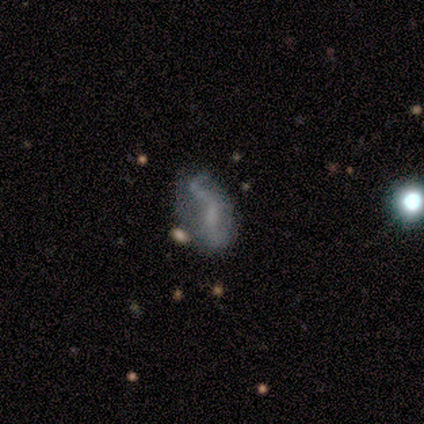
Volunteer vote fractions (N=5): This appears to be a featured or disk galaxy (80%) with a weak bar (75%), 2 (50%, tied with can't tell) medium (50%, tied with loose) spiral arms (50%, tied with no) and no central bulge (100%). Merging: minor disturbance (80%).